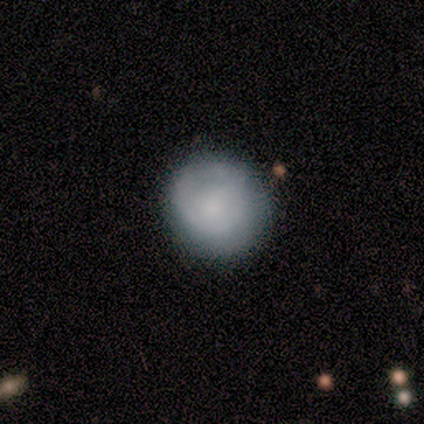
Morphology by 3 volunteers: Volunteers were most divided on "how rounded" (2-way tie): round: 50%, in between: 50%, cigar-shaped: 0%. More confident: merging — none (100%); smooth or featured — smooth (67%).